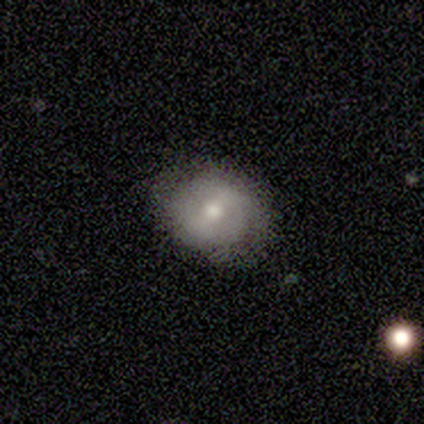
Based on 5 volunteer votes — A smooth galaxy with no disk features (40%, tied with featured or disk) that is round (100%).

Vote fractions:
- Smooth or featured? smooth: 40% (tied) / featured or disk: 40% (tied) / star or artifact: 20%
- How rounded? round: 100% / in between: 0% / cigar-shaped: 0%
- Merging? none: 100% / minor disturbance: 0% / major disturbance: 0% / merger: 0%